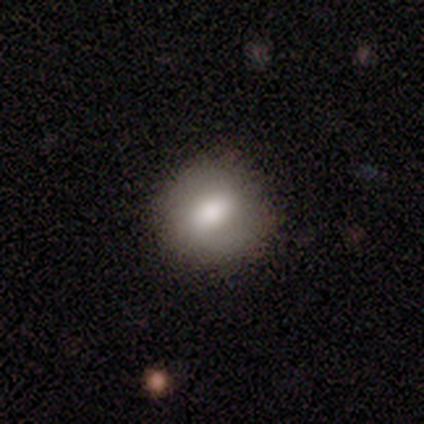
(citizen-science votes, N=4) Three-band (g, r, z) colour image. It shows a smooth galaxy with no disk features (75%) that is round (67%). Merging: none (75%).